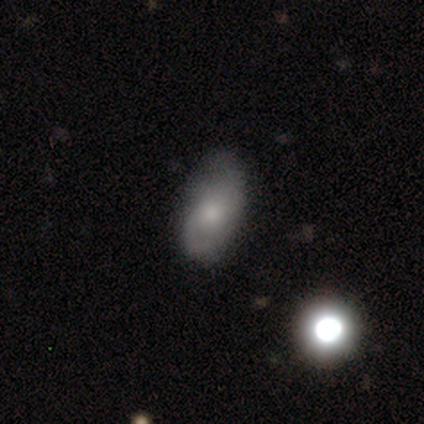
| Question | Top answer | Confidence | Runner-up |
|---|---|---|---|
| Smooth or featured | smooth | 55% | featured or disk (45%) |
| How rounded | in between | 81% | round (19%) |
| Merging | none | 74% | minor disturbance (26%) |